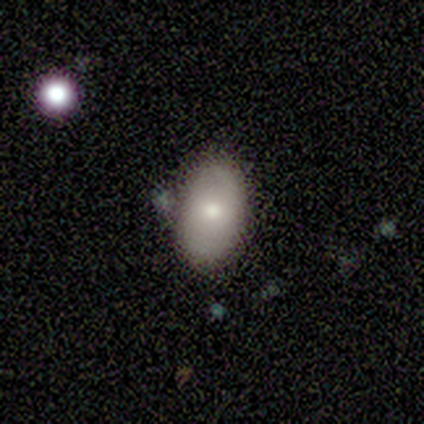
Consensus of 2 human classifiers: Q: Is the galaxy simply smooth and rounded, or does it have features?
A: smooth — 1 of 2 (50%, tied with star or artifact).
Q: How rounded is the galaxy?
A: in between — 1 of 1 (100%).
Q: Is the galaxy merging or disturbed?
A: minor disturbance — 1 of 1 (100%).